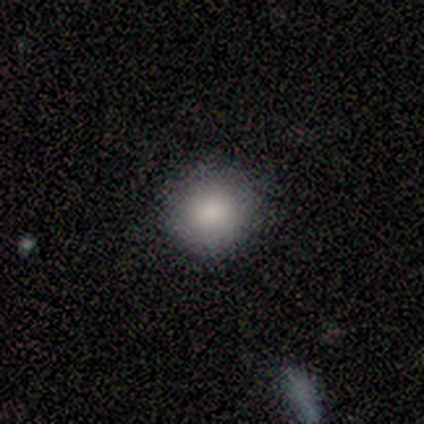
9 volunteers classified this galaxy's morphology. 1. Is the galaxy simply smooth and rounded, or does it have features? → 89% smooth, 11% star or artifact, 0% featured or disk.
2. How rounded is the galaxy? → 88% round, 12% in between, 0% cigar-shaped.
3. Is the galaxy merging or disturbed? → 88% none, 12% minor disturbance, 0% major disturbance, 0% merger.